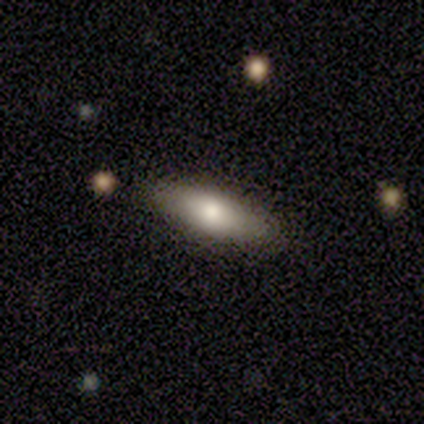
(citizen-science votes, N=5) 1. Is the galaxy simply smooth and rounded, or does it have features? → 100% smooth, 0% featured or disk, 0% star or artifact.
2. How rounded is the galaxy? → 60% in between, 40% cigar-shaped, 0% round.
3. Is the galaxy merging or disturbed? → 100% none, 0% minor disturbance, 0% major disturbance, 0% merger.